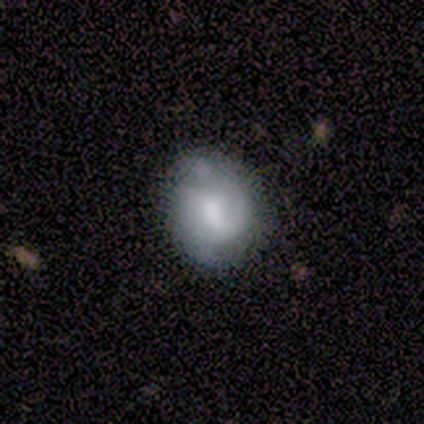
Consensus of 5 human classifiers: smooth_or_featured: featured or disk (p=0.80) [alt: smooth p=0.20]
disk_edge_on: no (p=1.00)
bar: strong (p=0.50) [tied with: no p=0.50]
has_spiral_arms: yes (p=0.50) [tied with: no p=0.50]
spiral_winding: medium (p=0.50) [tied with: loose p=0.50]
spiral_arm_count: 1 (p=0.50) [tied with: 2 p=0.50]
bulge_size: moderate (p=0.75) [alt: large p=0.25]
merging: minor disturbance (p=0.40) [alt: none p=0.20]